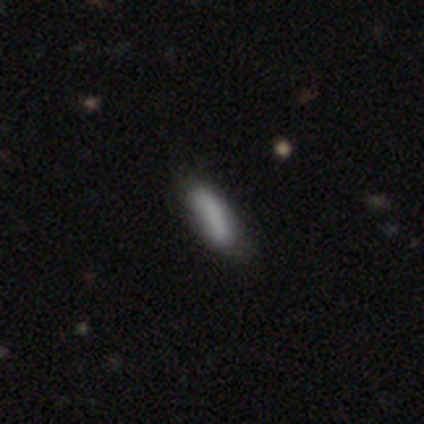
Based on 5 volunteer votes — A smooth galaxy with no disk features (100%) that is in between round and cigar-shaped (80%).

Vote fractions:
- Smooth or featured? smooth: 100% / featured or disk: 0% / star or artifact: 0%
- How rounded? in between: 80% / cigar-shaped: 20% / round: 0%
- Merging? minor disturbance: 60% / none: 40% / major disturbance: 0% / merger: 0%